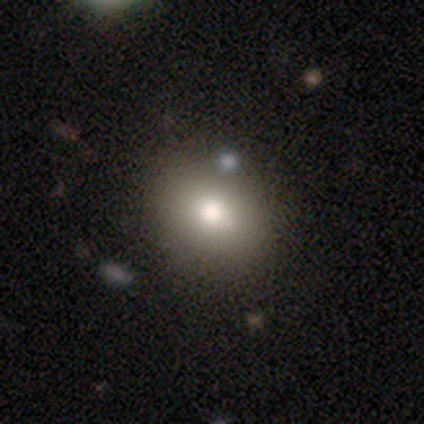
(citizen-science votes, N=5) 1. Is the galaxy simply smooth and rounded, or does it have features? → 80% smooth, 20% star or artifact, 0% featured or disk.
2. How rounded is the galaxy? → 50% round (tied), 50% in between (tied), 0% cigar-shaped.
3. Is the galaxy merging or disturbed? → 75% none, 25% major disturbance, 0% minor disturbance, 0% merger.